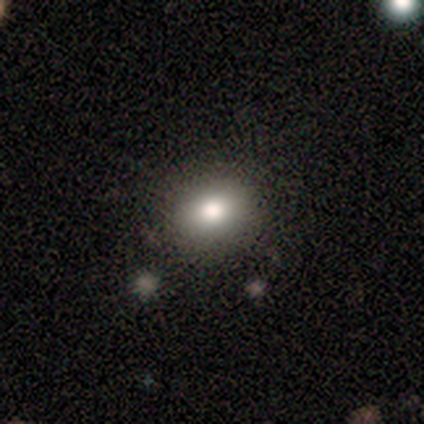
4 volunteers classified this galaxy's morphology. Smooth or featured?
  - smooth: 75% *
  - featured or disk: 25%
  - star or artifact: 0%
How rounded?
  - round: 100% *
  - in between: 0%
  - cigar-shaped: 0%
Merging?
  - none: 100% *
  - minor disturbance: 0%
  - major disturbance: 0%
  - merger: 0%